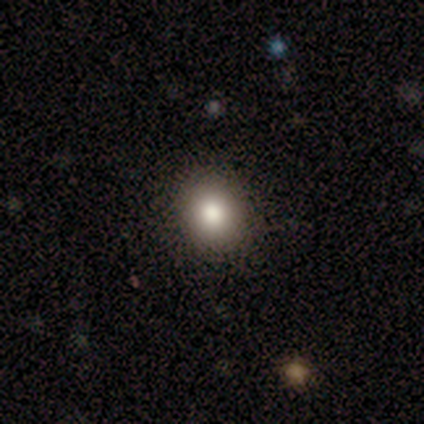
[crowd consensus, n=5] Q: Smooth or featured?
A: smooth (60%); runner-up: featured or disk (40%)
Q: How rounded?
A: round (67%); runner-up: in between (33%)
Q: Merging?
A: none (100%)